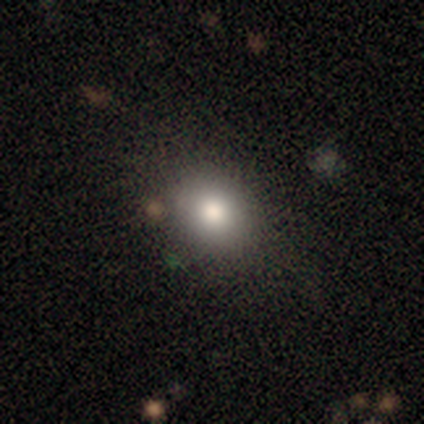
smooth-or-featured: smooth: 82% | featured or disk: 10% | star or artifact: 8%
  how-rounded: round: 55% | in between: 45% | cigar-shaped: 0%
  merging: none: 84% | minor disturbance: 8% | major disturbance: 8% | merger: 0%